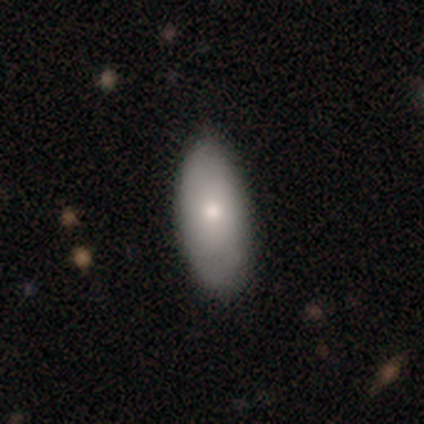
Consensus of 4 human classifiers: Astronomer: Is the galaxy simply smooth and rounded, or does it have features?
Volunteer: smooth — 100%.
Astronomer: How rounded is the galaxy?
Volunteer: in between — 100%.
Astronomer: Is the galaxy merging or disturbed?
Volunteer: none — 100%.